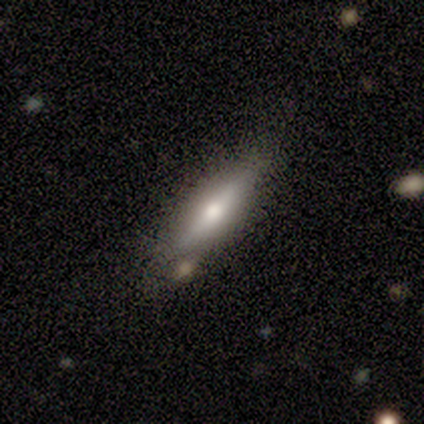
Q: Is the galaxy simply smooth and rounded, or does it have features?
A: smooth — 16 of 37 (43%).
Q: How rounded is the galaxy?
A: cigar-shaped — 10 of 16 (62%).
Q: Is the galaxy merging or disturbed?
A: none — 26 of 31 (84%).